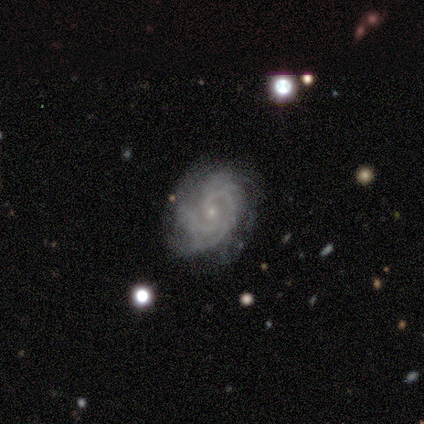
Q: Smooth or featured?
A: featured or disk (100%)
Q: Edge-on disk?
A: no (100%)
Q: Bar?
A: no (100%)
Q: Spiral arms?
A: yes (100%)
Q: Spiral winding?
A: tight (100%)
Q: Spiral arm count?
A: 2 (50%); runner-up: 3 (25%)
Q: Bulge size?
A: small (100%)
Q: Merging?
A: none (75%); runner-up: minor disturbance (25%)